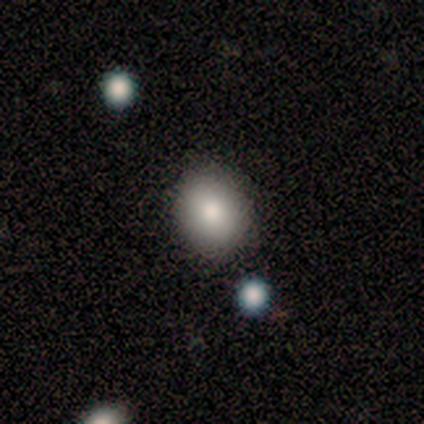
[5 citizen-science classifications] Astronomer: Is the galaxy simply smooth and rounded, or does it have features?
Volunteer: smooth — 60% (runner-up: featured or disk, 40%).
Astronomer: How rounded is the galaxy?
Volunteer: round — 67%.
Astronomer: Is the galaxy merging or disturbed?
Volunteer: none — 100%.